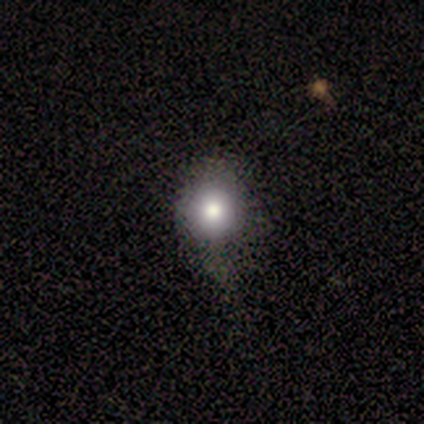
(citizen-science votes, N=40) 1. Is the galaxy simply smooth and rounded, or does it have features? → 82% smooth, 12% featured or disk, 5% star or artifact.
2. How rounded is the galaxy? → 91% round, 9% in between, 0% cigar-shaped.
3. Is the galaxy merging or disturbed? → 66% none, 13% minor disturbance, 5% major disturbance, 0% merger.